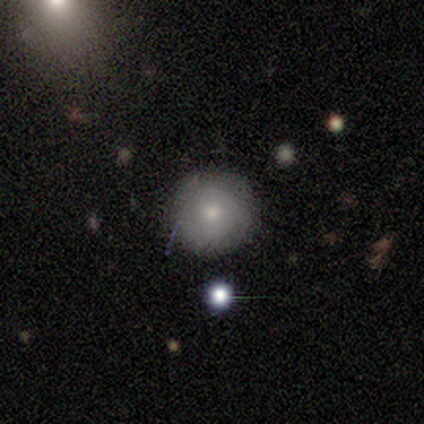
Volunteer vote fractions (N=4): Volunteers were most divided on "smooth or featured": star or artifact: 50%, smooth: 25%, featured or disk: 25%.